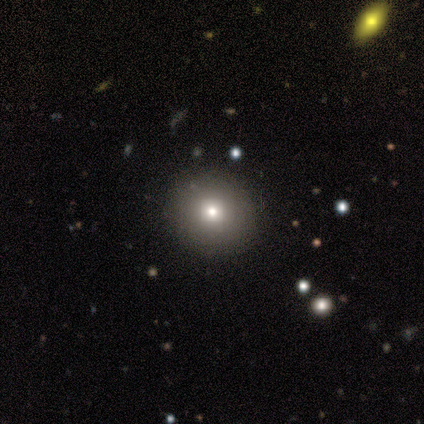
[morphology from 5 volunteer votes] Smooth or featured: smooth — 60% (featured or disk — 40%)
How rounded: round — 67% (in between — 33%)
Merging: none — 100%